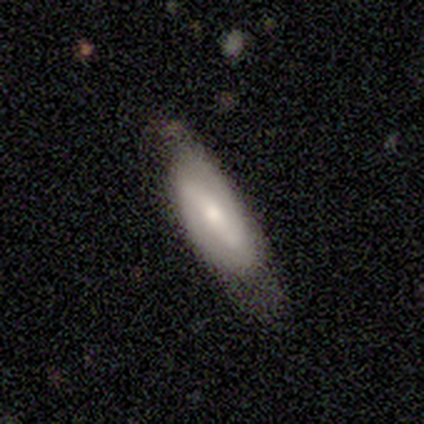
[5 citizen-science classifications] smooth_or_featured: smooth (p=0.80) [alt: featured or disk p=0.20]
how_rounded: in between (p=0.75) [alt: cigar-shaped p=0.25]
merging: none (p=0.40) [tied with: minor disturbance p=0.40]